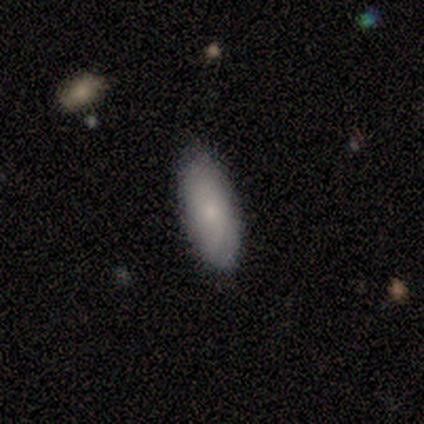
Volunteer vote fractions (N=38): Smooth or featured? 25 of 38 (66%) said smooth. How rounded? 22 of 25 (88%) said in between. Merging? 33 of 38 (87%) said none.